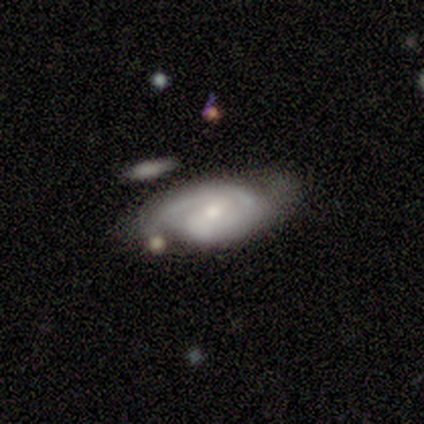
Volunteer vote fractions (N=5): Overall: featured or disk (100%). Edge-on disk: no (100%). Bar: no (60%; weak 40%). Spiral arms: yes (100%). Spiral arm count: 2 (60%; 1 20%). Spiral winding: medium (60%; tight 20%). Bulge size: small (60%; moderate 40%). Merging: none (80%).